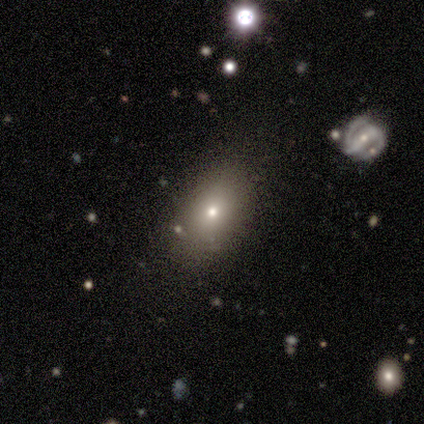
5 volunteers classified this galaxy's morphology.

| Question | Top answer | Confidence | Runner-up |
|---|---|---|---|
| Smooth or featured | smooth | 60% | featured or disk (40%) |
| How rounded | in between | 67% | round (33%) |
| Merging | none | 80% | merger (20%) |